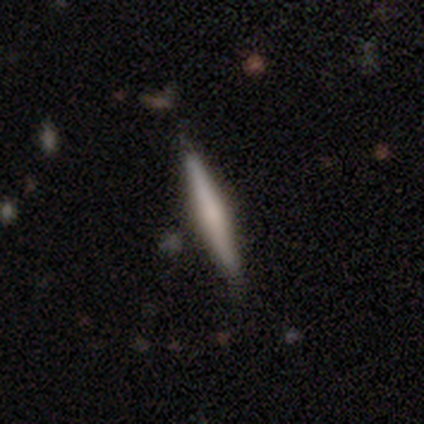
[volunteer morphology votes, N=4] type=smooth (50%, tied with featured or disk); roundness=cigar-shaped (100%); merging=none (50%, tied with minor disturbance).